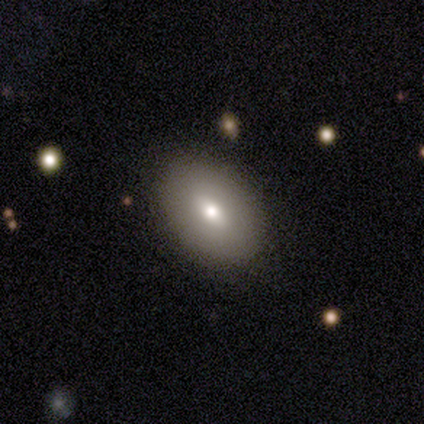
A smooth galaxy with no disk features (72%) that is in between round and cigar-shaped (79%). Merging: none (95%).